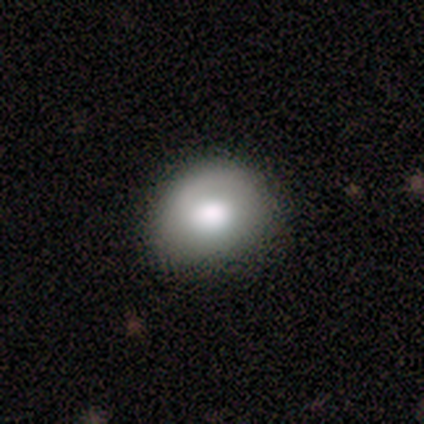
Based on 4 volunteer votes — This appears to be a smooth galaxy with no disk features (100%) that is round (50%, tied with in between). Merging: none (100%).